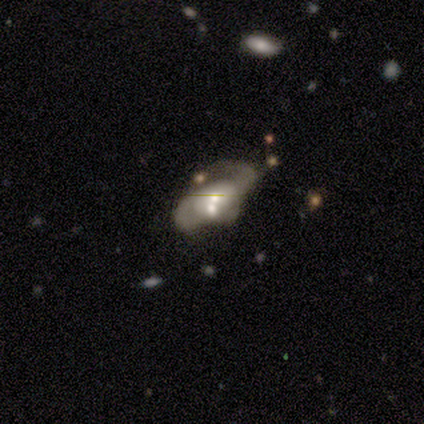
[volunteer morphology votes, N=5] Volunteers were most divided on "bulge size" (2-way tie): moderate: 50%, small: 50%, dominant: 0%, large: 0%, none: 0%; "merging" (2-way tie): major disturbance: 40%, merger: 40%, none: 20%, minor disturbance: 0%. More confident: smooth or featured — featured or disk (100%); bar — no (100%); spiral winding — loose (100%); spiral arm count — 2 (100%); edge-on disk — no (80%); spiral arms — yes (75%).